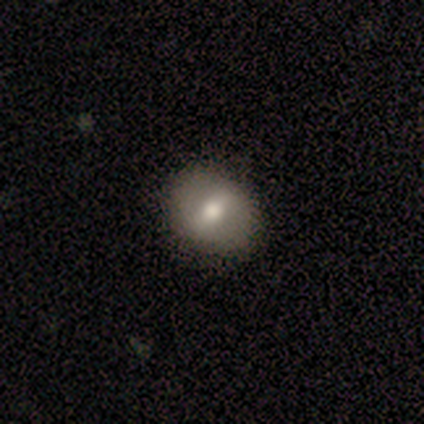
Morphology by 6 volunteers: Volunteers were most divided on "smooth or featured" (2-way tie): smooth: 50%, featured or disk: 50%, star or artifact: 0%. More confident: merging — none (100%); how rounded — round (67%).